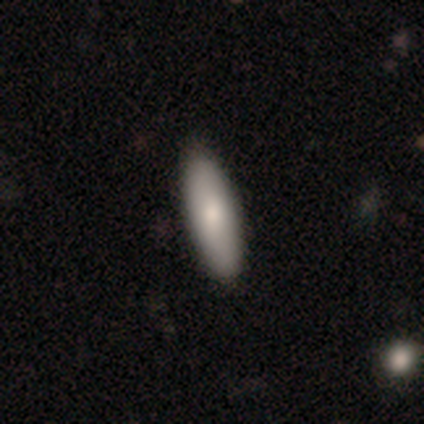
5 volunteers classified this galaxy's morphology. Smooth or featured?
  - smooth: 100% *
  - featured or disk: 0%
  - star or artifact: 0%
How rounded?
  - in between: 80% *
  - cigar-shaped: 20%
  - round: 0%
Merging?
  - none: 80% *
  - minor disturbance: 20%
  - major disturbance: 0%
  - merger: 0%